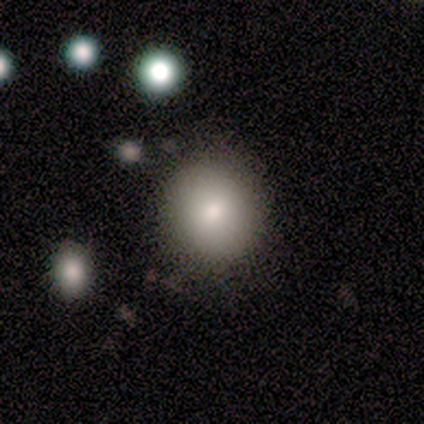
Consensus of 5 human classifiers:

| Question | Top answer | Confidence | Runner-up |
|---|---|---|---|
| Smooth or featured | smooth | 80% | star or artifact (20%) |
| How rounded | round | 100% | — |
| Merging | none | 50% | tied: minor disturbance (50%) |